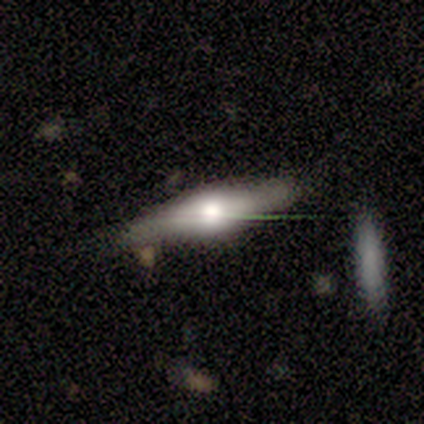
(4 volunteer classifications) Overall: smooth (75%). How rounded: cigar-shaped (67%; in between 33%). Merging: none (100%).